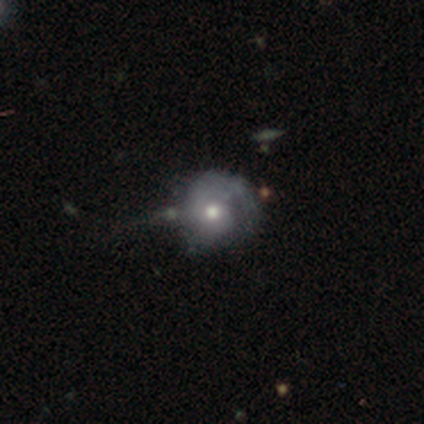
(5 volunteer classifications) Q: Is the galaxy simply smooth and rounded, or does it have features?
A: featured or disk — 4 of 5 (80%).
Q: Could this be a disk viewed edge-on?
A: no — 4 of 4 (100%).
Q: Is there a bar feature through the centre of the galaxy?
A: no — 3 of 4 (75%).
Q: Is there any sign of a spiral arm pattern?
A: yes — 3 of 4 (75%).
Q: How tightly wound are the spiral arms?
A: tight — 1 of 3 (33%, tied with medium and loose).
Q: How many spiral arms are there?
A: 1 — 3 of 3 (100%).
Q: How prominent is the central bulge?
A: moderate — 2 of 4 (50%, tied with small).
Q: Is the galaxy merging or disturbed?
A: none — 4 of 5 (80%).